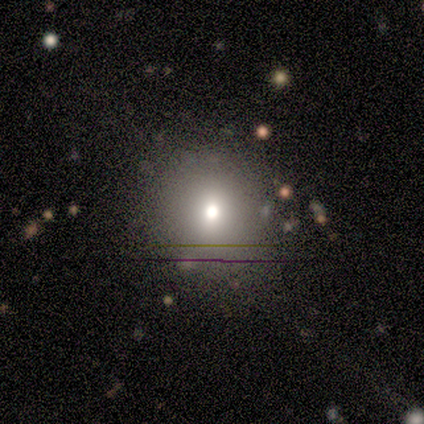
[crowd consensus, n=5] A smooth galaxy with no disk features (100%) that is round (80%).

Vote fractions:
- Smooth or featured? smooth: 100% / featured or disk: 0% / star or artifact: 0%
- How rounded? round: 80% / in between: 20% / cigar-shaped: 0%
- Merging? none: 100% / minor disturbance: 0% / major disturbance: 0% / merger: 0%